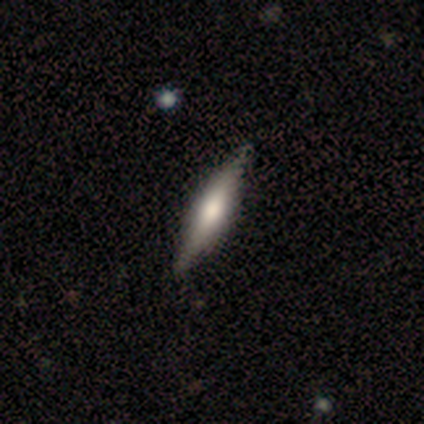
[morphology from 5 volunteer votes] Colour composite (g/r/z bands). It shows a smooth galaxy with no disk features (80%) that is cigar-shaped (100%). Merging: none (100%).